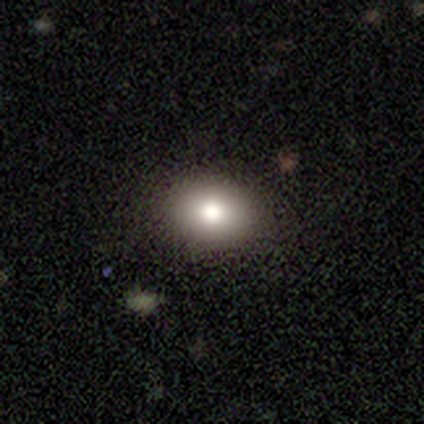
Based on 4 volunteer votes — Morphology: type=smooth (100%); roundness=round (50%, tied with in between); merging=none (100%).